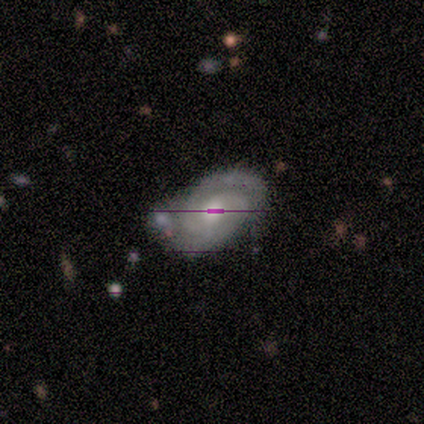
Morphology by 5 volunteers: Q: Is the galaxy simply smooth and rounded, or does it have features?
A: featured or disk — 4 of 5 (80%).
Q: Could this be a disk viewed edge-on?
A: no — 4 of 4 (100%).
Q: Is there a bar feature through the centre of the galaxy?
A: weak — 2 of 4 (50%, tied with no).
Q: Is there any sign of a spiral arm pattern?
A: yes — 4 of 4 (100%).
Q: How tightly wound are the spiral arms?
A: tight — 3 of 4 (75%).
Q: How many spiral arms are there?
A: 2 — 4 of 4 (100%).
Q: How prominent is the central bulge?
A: moderate — 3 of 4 (75%).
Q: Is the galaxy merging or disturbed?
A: none — 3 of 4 (75%).